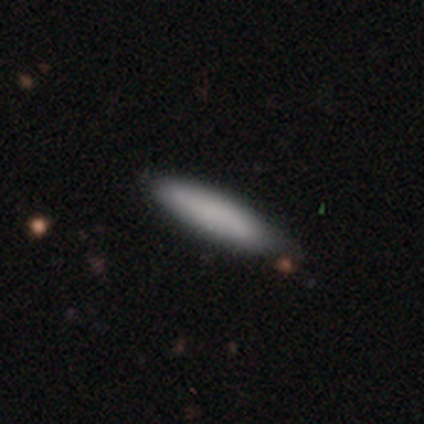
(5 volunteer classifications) This is clearly a smooth galaxy (80%). How rounded: clearly cigar-shaped (100%). Merging: clearly none (100%).